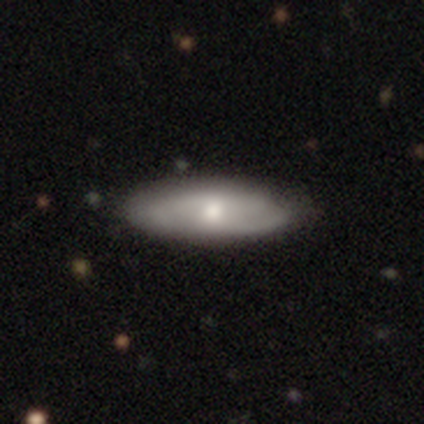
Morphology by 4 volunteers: Smooth or featured: smooth — 100%
How rounded: in between — 100%
Merging: none — 100%